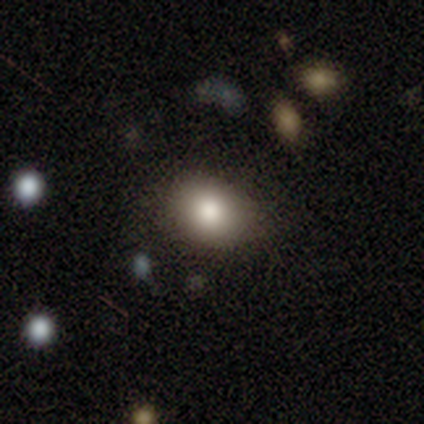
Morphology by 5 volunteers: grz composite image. It shows a smooth galaxy with no disk features (100%) that is in between round and cigar-shaped (80%). Merging: none (60%).